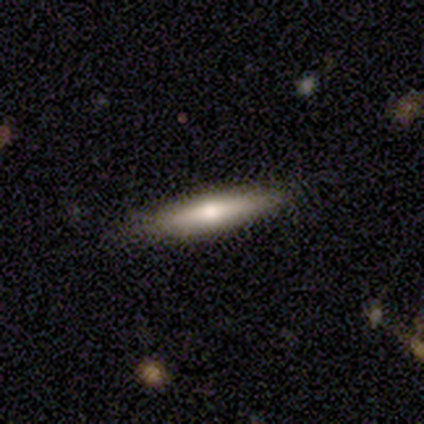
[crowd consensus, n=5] Smooth or featured? smooth (60%)
How rounded? cigar-shaped (67%)
Merging? none (100%)